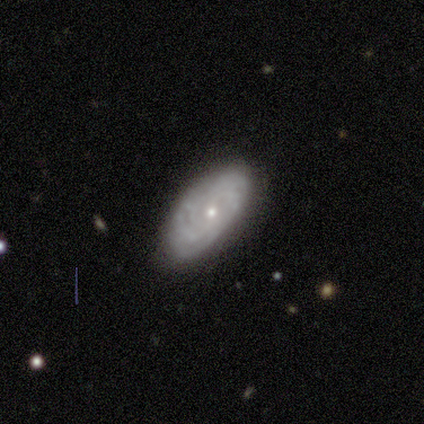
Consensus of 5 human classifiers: A featured or disk galaxy (80%) with no bar (75%), 2 (25%, tied with 3, 4 and more than 4) tight (100%) spiral arms (100%) and a small central bulge (100%). Merging: none (80%).